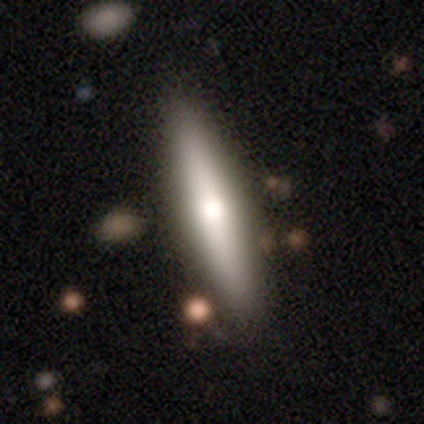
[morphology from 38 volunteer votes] This appears to be a featured or disk galaxy (53%) viewed edge-on (85%) with a rounded central bulge (88%). Merging: none (81%).